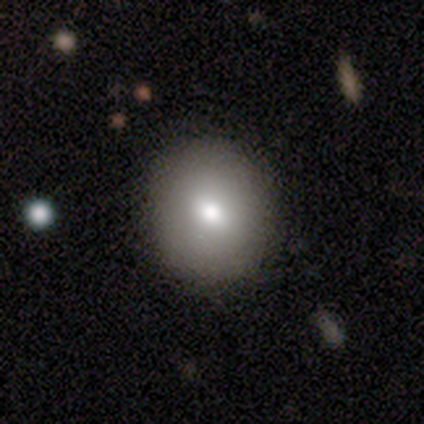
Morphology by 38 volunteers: This appears to be a smooth galaxy with no disk features (82%) that is round (81%). Merging: none (64%).